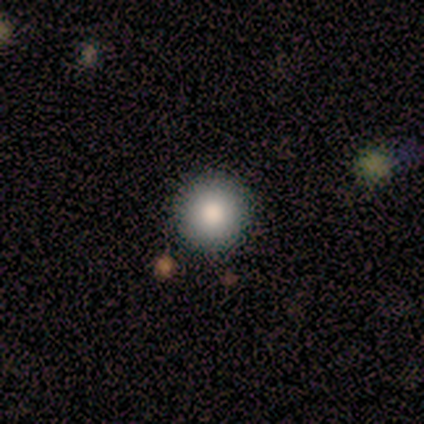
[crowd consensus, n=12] Q: Smooth or featured?
A: smooth (75%); runner-up: star or artifact (25%)
Q: How rounded?
A: round (89%); runner-up: in between (11%)
Q: Merging?
A: none (100%)